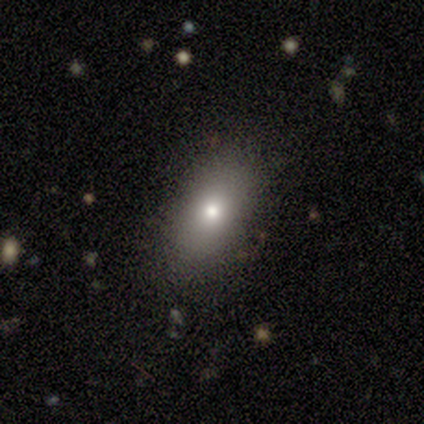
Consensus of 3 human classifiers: This appears to be a smooth galaxy with no disk features (100%) that is cigar-shaped (67%). Merging: none (100%).